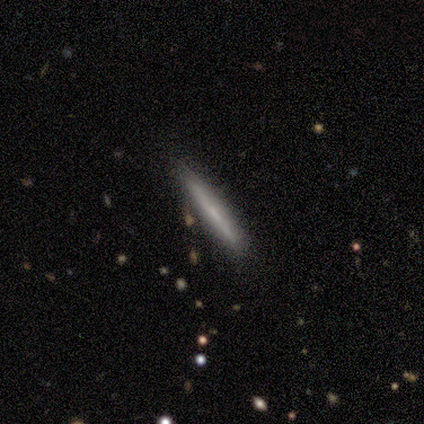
Smooth or featured? 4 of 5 (80%) said featured or disk. Edge-on disk? 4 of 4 (100%) said yes. Edge-on bulge? 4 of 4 (100%) said none. Merging? 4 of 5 (80%) said none.